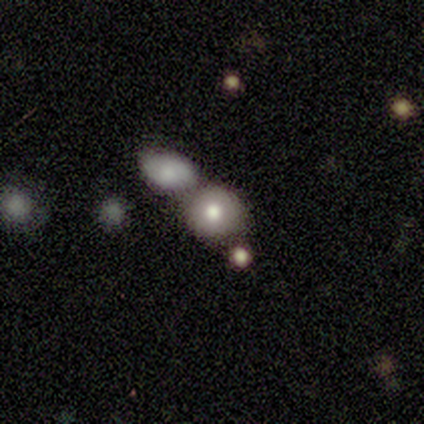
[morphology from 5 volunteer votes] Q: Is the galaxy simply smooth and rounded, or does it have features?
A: smooth — 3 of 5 (60%).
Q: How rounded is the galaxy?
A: round — 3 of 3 (100%).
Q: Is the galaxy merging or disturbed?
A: merger — 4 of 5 (80%).